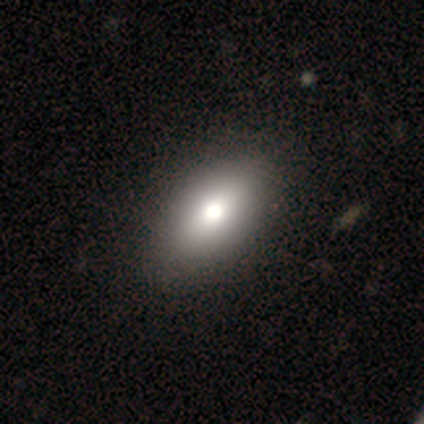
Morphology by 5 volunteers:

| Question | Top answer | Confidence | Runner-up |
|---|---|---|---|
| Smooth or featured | smooth | 100% | — |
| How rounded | in between | 100% | — |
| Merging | none | 80% | minor disturbance (20%) |